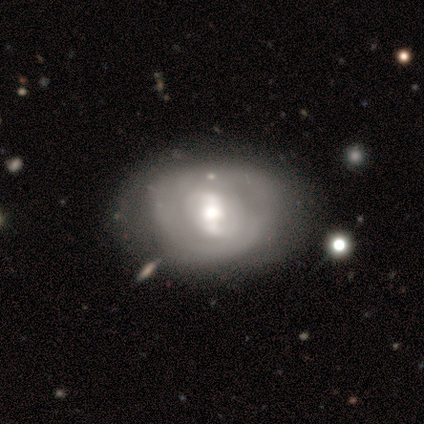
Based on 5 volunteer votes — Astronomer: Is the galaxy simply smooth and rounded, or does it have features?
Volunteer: featured or disk — 100%.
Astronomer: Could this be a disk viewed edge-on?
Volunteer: no — 100%.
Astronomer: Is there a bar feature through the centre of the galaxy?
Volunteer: strong — 80%.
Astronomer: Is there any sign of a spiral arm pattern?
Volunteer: yes — 80%.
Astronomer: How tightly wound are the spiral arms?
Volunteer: medium — 75%.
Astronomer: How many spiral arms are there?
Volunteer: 2 — 100%.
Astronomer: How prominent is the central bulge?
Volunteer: large — 40%, tied with moderate at 40%.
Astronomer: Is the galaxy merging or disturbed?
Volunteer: none — 100%.